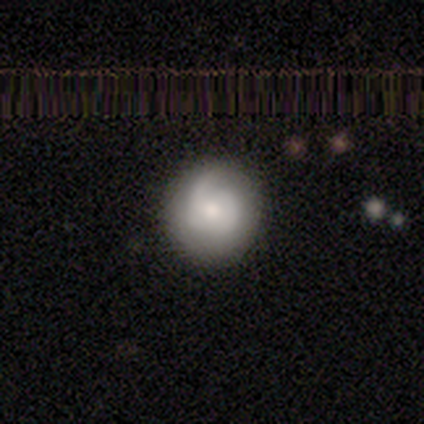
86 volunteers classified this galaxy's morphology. This appears to be a featured or disk galaxy (48%) with no bar (64%), 2 (44%) medium (47%) spiral arms (82%) and a moderate central bulge (74%). Merging: none (79%).